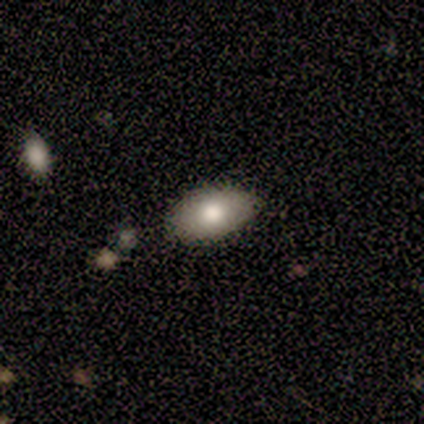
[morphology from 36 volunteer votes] smooth 72%, featured or disk 25%, star or artifact 3%. Down the decision tree: how rounded — in between (92%); merging — none (89%).